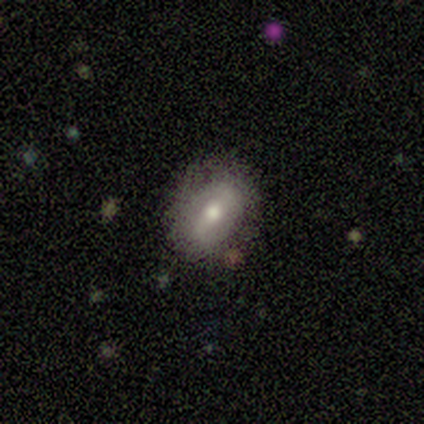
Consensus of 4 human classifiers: Volunteers were most divided on "how rounded": in between: 67%, round: 33%, cigar-shaped: 0%. More confident: merging — none (100%); smooth or featured — smooth (75%).